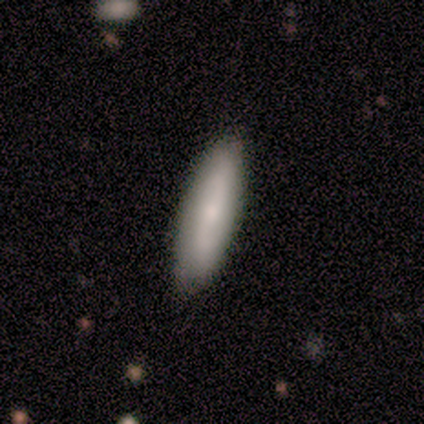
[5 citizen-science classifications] smooth 60%, featured or disk 40%, star or artifact 0%. Down the decision tree: how rounded — in between (67%); merging — none (100%).